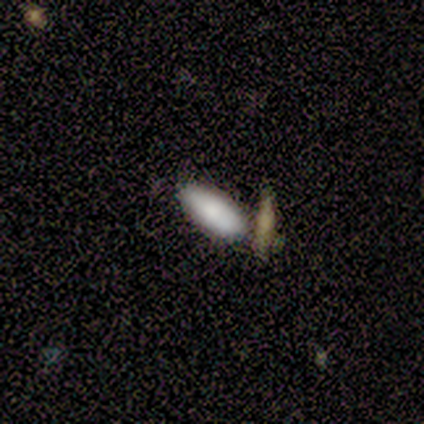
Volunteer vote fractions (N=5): Morphology: type=smooth (100%); roundness=in between (60%); merging=none (100%).